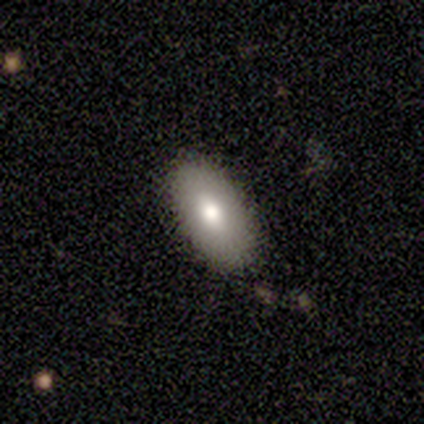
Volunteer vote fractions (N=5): Smooth or featured?
  - smooth: 60% *
  - featured or disk: 40%
  - star or artifact: 0%
How rounded?
  - in between: 100% *
  - round: 0%
  - cigar-shaped: 0%
Merging?
  - none: 100% *
  - minor disturbance: 0%
  - major disturbance: 0%
  - merger: 0%